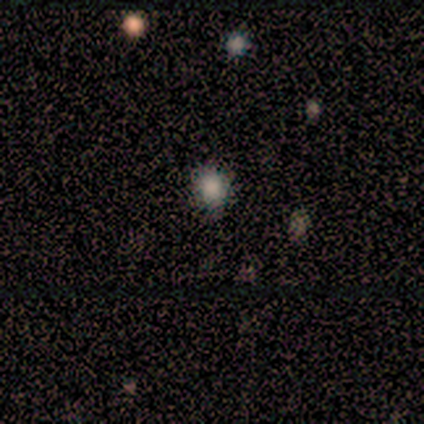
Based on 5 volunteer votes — Volunteers were most divided on "smooth or featured": smooth: 60%, star or artifact: 40%, featured or disk: 0%. More confident: how rounded — round (100%); merging — none (67%).